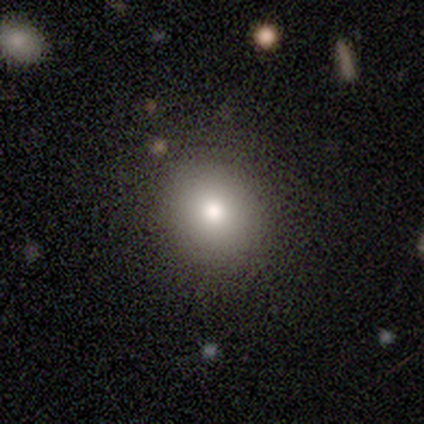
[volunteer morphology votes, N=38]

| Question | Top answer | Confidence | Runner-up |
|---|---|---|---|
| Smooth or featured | smooth | 79% | featured or disk (13%) |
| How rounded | round | 77% | in between (23%) |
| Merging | none | 74% | minor disturbance (14%) |